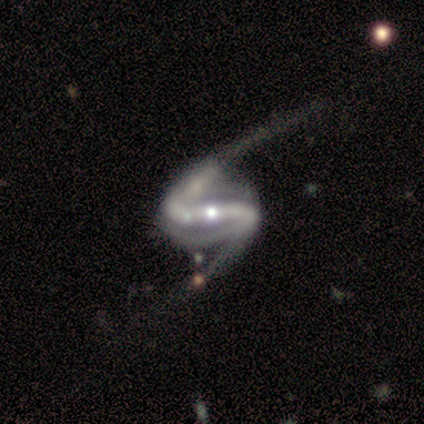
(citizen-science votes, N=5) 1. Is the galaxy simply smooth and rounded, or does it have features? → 100% featured or disk, 0% smooth, 0% star or artifact.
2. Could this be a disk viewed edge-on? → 100% no, 0% yes.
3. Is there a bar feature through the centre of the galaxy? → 60% weak, 20% strong, 20% no.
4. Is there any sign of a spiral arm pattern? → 80% yes, 20% no.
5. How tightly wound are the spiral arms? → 75% loose, 25% tight, 0% medium.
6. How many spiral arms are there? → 75% 2, 25% can't tell, 0% 1, 0% 3, 0% 4, 0% more than 4.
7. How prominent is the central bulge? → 60% small, 20% moderate, 20% none, 0% dominant, 0% large.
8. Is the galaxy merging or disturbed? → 40% none (tied), 40% major disturbance (tied), 20% merger, 0% minor disturbance.